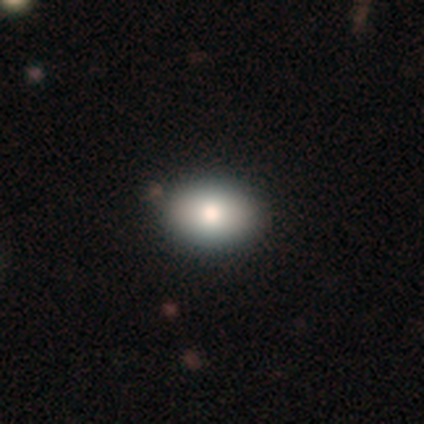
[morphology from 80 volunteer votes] Overall: smooth (85%). How rounded: in between (84%). Merging: none (45%).